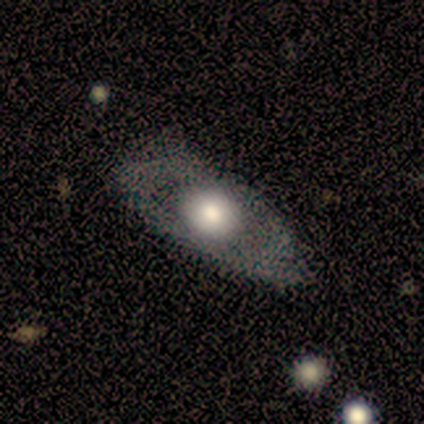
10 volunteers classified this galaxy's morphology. Overall: featured or disk (60%; smooth 40%). Edge-on disk: no (100%). Bar: no (83%). Spiral arms: no (83%). Bulge size: large (67%; moderate 33%). Merging: none (50%, tied with minor disturbance).